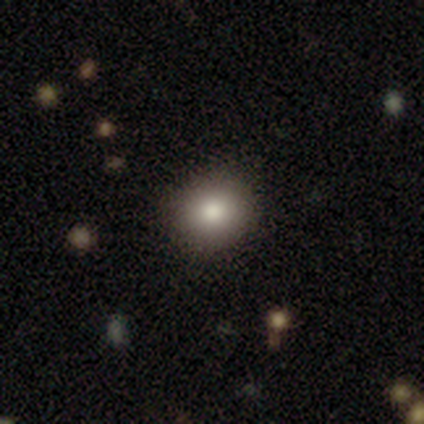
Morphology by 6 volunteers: Smooth or featured? smooth (100%)
How rounded? round (83%)
Merging? none (67%)